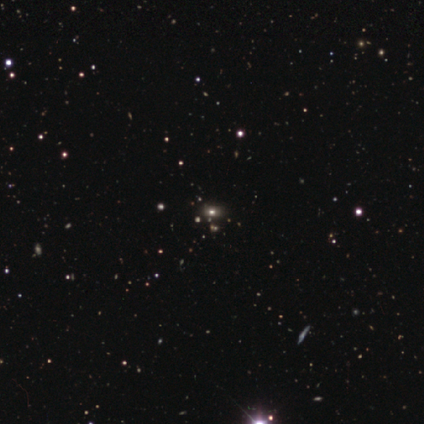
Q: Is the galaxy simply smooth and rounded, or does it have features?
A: star or artifact — 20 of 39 (51%).